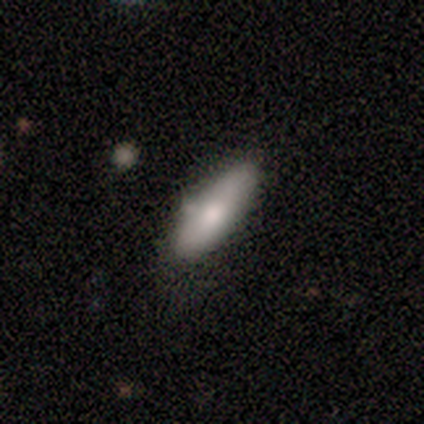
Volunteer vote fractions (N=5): Overall: smooth (100%). How rounded: in between (80%). Merging: none (80%).